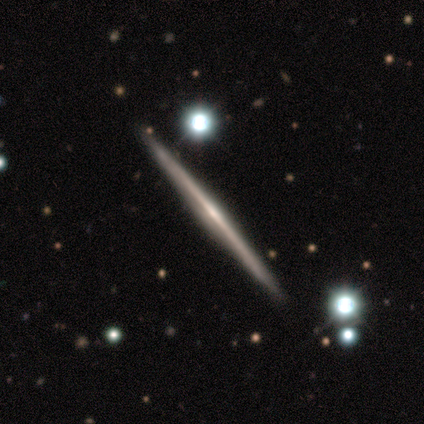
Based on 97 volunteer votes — Smooth or featured? featured or disk (88%)
Edge-on disk? yes (99%)
Edge-on bulge? rounded (44%)
Merging? none (78%)